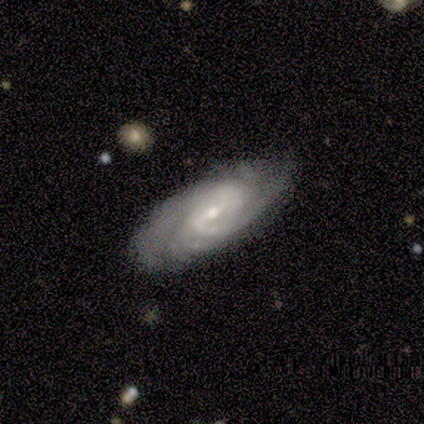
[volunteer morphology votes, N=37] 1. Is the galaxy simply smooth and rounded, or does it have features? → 89% featured or disk, 8% smooth, 3% star or artifact.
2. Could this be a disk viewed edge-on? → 94% no, 6% yes.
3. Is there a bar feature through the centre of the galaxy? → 68% weak, 16% strong, 16% no.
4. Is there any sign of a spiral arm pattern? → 97% yes, 3% no.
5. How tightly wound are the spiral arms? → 57% tight, 40% medium, 3% loose.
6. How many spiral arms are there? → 40% can't tell, 33% 2, 13% 1, 7% 4, 3% 3, 3% more than 4.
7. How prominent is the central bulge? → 68% small, 29% moderate, 3% large, 0% dominant, 0% none.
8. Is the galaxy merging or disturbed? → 83% none, 17% minor disturbance, 0% major disturbance, 0% merger.